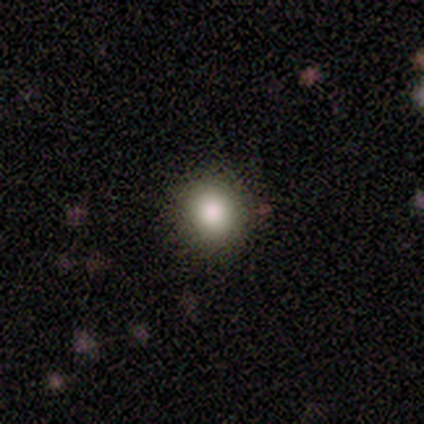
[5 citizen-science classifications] This appears to be a smooth galaxy with no disk features (100%) that is round (80%). Merging: none (100%).